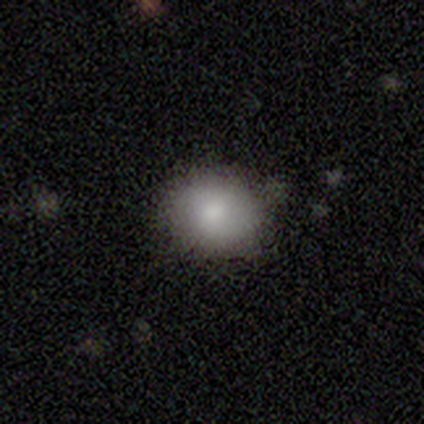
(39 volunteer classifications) A smooth galaxy with no disk features (79%) that is round (65%). Merging: none (80%).